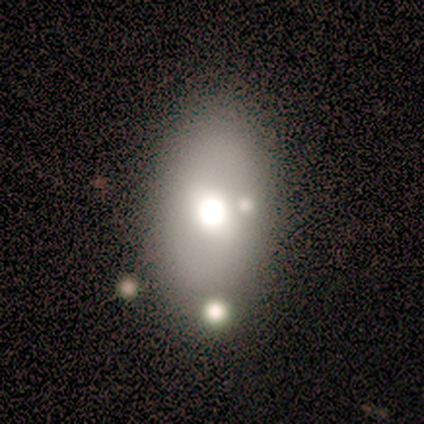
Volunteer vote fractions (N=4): A featured or disk galaxy (75%) with no bar (100%), no spiral arms (100%) and a dominant central bulge (67%).

Vote fractions:
- Smooth or featured? featured or disk: 75% / smooth: 25% / star or artifact: 0%
- Edge-on disk? no: 100% / yes: 0%
- Bar? no: 100% / strong: 0% / weak: 0%
- Spiral arms? no: 100% / yes: 0%
- Bulge size? dominant: 67% / moderate: 33% / large: 0% / small: 0% / none: 0%
- Merging? none: 75% / major disturbance: 25% / minor disturbance: 0% / merger: 0%